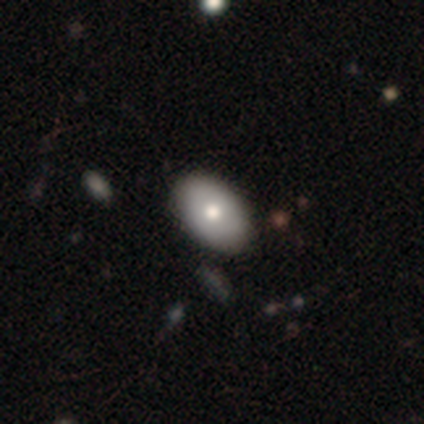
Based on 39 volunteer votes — This appears to be a smooth galaxy with no disk features (74%) that is in between round and cigar-shaped (93%). Merging: none (77%).